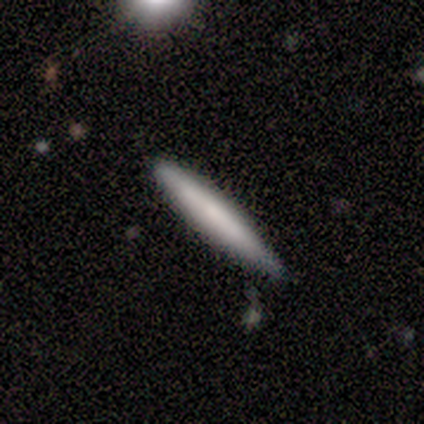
Smooth or featured?
  - smooth: 50% * (tied)
  - featured or disk: 50% * (tied)
  - star or artifact: 0%
How rounded?
  - cigar-shaped: 100% *
  - round: 0%
  - in between: 0%
Merging?
  - none: 100% *
  - minor disturbance: 0%
  - major disturbance: 0%
  - merger: 0%